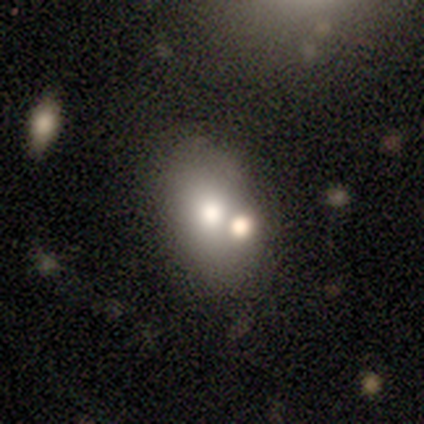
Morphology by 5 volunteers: A smooth galaxy with no disk features (80%) that is in between round and cigar-shaped (75%).

Vote fractions:
- Smooth or featured? smooth: 80% / star or artifact: 20% / featured or disk: 0%
- How rounded? in between: 75% / round: 25% / cigar-shaped: 0%
- Merging? merger: 75% / minor disturbance: 25% / none: 0% / major disturbance: 0%